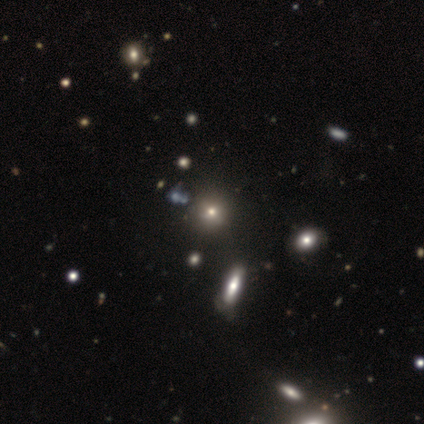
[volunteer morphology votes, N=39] type=smooth (67%); roundness=round (85%); merging=none (65%).